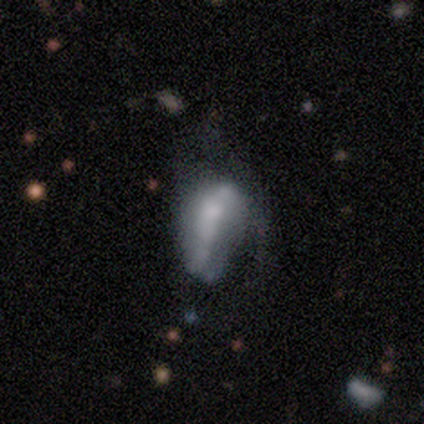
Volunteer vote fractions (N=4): Morphology: type=featured or disk (50%); edge-on=no (100%); bar=no (100%); spiral arms=yes (50%, tied with no); winding=loose (100%); arm count=1 (100%); bulge=small (50%, tied with none); merging=major disturbance (67%).